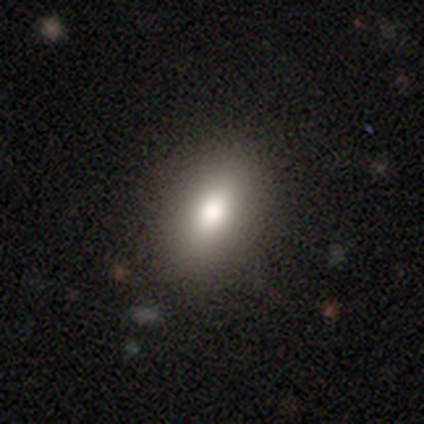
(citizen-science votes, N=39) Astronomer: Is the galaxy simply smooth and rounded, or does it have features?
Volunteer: smooth — 90%.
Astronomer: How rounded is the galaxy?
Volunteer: in between — 94%.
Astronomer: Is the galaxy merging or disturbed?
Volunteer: none — 74%.